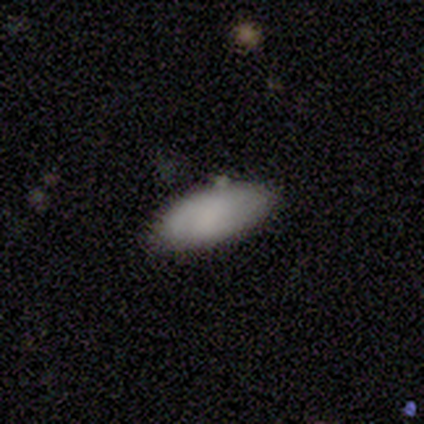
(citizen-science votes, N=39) This appears to be a smooth galaxy with no disk features (87%) that is in between round and cigar-shaped (88%). Merging: none (86%).